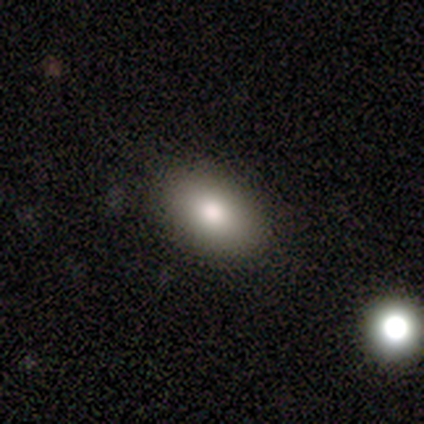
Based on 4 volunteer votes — smooth_or_featured: smooth (p=1.00)
how_rounded: in between (p=0.75) [alt: round p=0.25]
merging: none (p=0.50) [tied with: minor disturbance p=0.50]